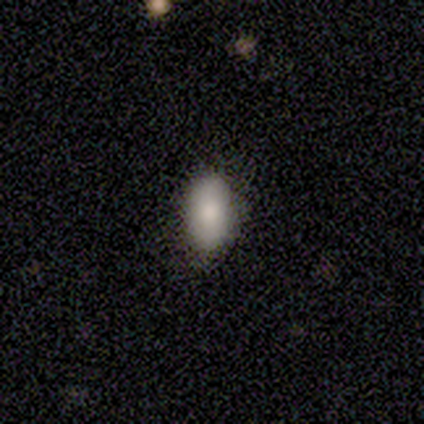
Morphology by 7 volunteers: This appears to be a smooth galaxy with no disk features (71%) that is in between round and cigar-shaped (100%). Merging: none (100%).